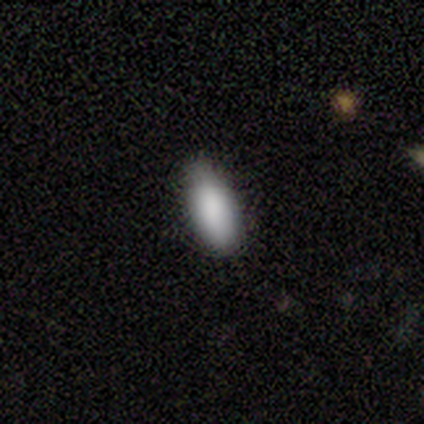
smooth_or_featured: smooth (p=1.00)
how_rounded: in between (p=0.75) [alt: round p=0.25]
merging: none (p=0.75) [alt: minor disturbance p=0.25]